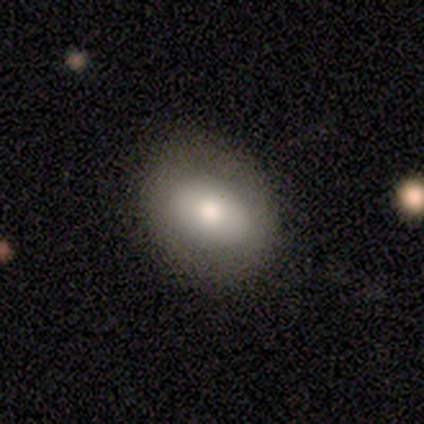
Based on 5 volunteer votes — Volunteers were most divided on "smooth or featured" (2-way tie): smooth: 40%, featured or disk: 40%, star or artifact: 20%; "how rounded" (2-way tie): round: 50%, in between: 50%, cigar-shaped: 0%. More confident: merging — none (100%).